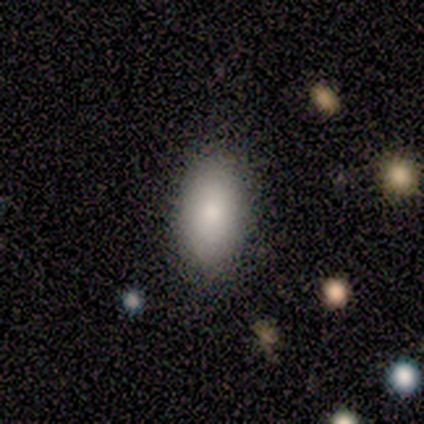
Smooth or featured: smooth — 100%
How rounded: in between — 100%
Merging: none — 100%